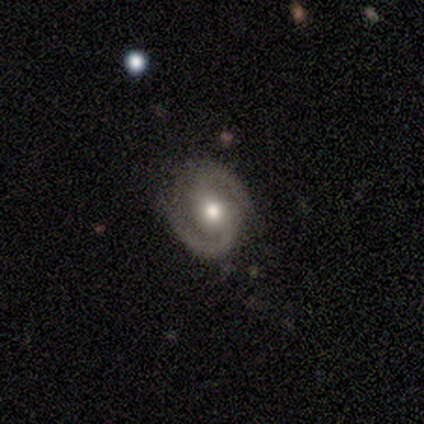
A featured or disk galaxy (100%) with a weak bar (67%), 2 (100%) medium (67%) spiral arms (100%) and a moderate central bulge (100%). Merging: none (100%).